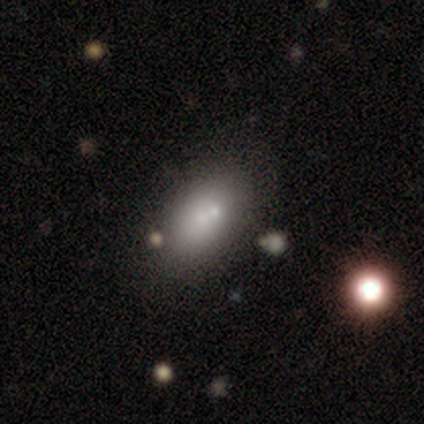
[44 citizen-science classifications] Smooth or featured? smooth (73%)
How rounded? in between (94%)
Merging? none (56%)